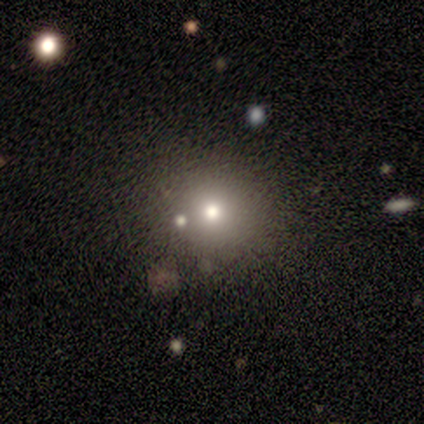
A smooth galaxy with no disk features (60%) that is round (67%).

Vote fractions:
- Smooth or featured? smooth: 60% / star or artifact: 40% / featured or disk: 0%
- How rounded? round: 67% / in between: 33% / cigar-shaped: 0%
- Merging? none: 100% / minor disturbance: 0% / major disturbance: 0% / merger: 0%